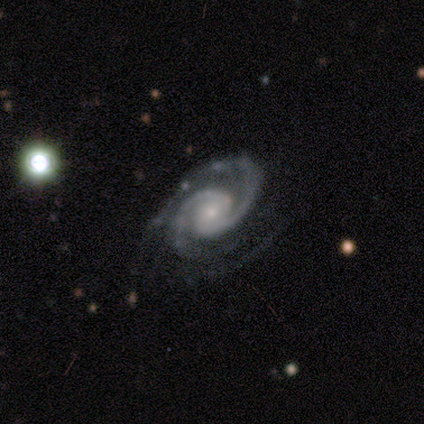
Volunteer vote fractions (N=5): Smooth or featured?
  - featured or disk: 100% *
  - smooth: 0%
  - star or artifact: 0%
Edge-on disk?
  - no: 100% *
  - yes: 0%
Bar?
  - no: 100% *
  - strong: 0%
  - weak: 0%
Spiral arms?
  - yes: 100% *
  - no: 0%
Spiral winding?
  - tight: 80% *
  - medium: 20%
  - loose: 0%
Spiral arm count?
  - 2: 100% *
  - 1: 0%
  - 3: 0%
  - 4: 0%
  - more than 4: 0%
  - can't tell: 0%
Bulge size?
  - small: 100% *
  - dominant: 0%
  - large: 0%
  - moderate: 0%
  - none: 0%
Merging?
  - none: 100% *
  - minor disturbance: 0%
  - major disturbance: 0%
  - merger: 0%